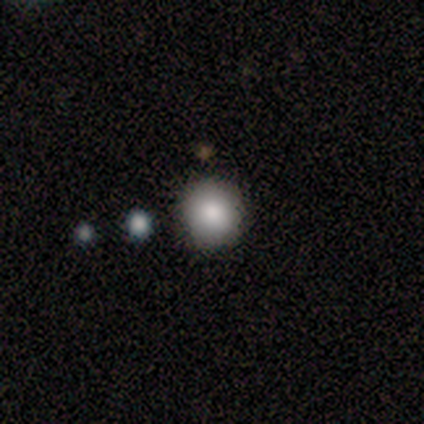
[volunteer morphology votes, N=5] smooth 100%, featured or disk 0%, star or artifact 0%. Down the decision tree: how rounded — round (100%); merging — none (60%).